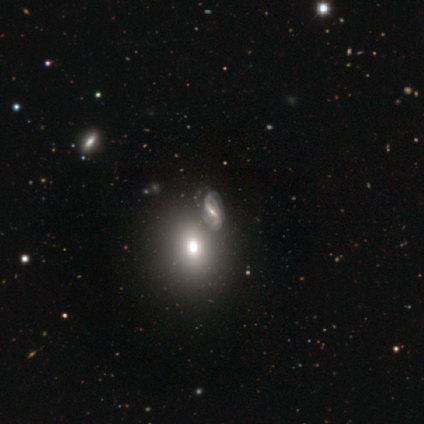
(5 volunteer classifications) This appears to be a featured or disk galaxy (60%) with a strong bar (33%, tied with weak and no), 2 (50%, tied with can't tell) loose (100%) spiral arms (67%) and a moderate central bulge (67%). Merging: none (60%).